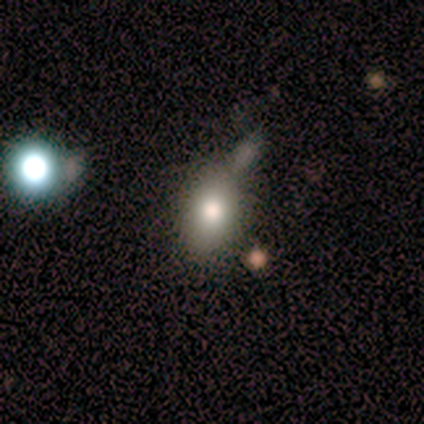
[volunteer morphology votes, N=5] This appears to be a smooth galaxy with no disk features (80%) that is in between round and cigar-shaped (75%). Merging: none (40%, tied with minor disturbance).